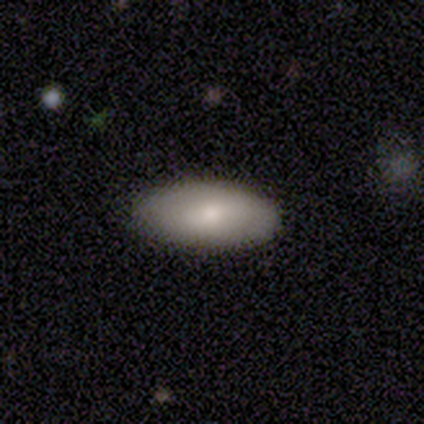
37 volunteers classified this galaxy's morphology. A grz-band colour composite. It shows a smooth galaxy with no disk features (78%) that is in between round and cigar-shaped (83%). Merging: none (80%).